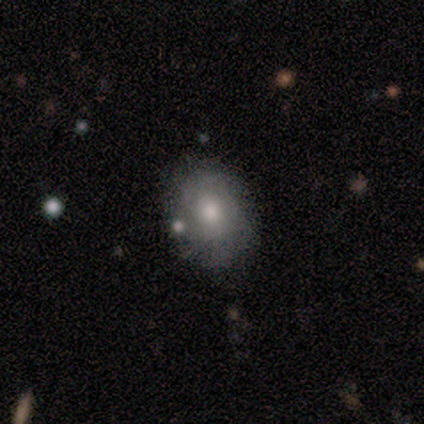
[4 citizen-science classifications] Smooth or featured?
  - smooth: 75% *
  - featured or disk: 25%
  - star or artifact: 0%
How rounded?
  - in between: 67% *
  - round: 33%
  - cigar-shaped: 0%
Merging?
  - none: 100% *
  - minor disturbance: 0%
  - major disturbance: 0%
  - merger: 0%